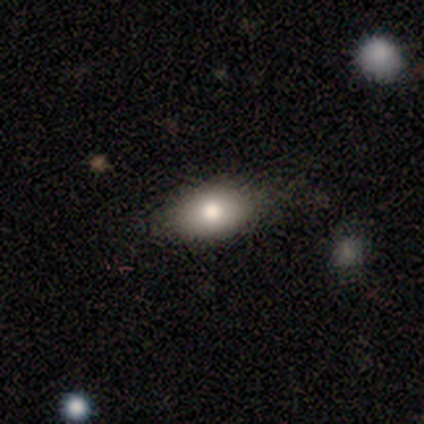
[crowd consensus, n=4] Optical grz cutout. It shows a smooth galaxy with no disk features (75%) that is in between round and cigar-shaped (100%). Merging: none (75%).